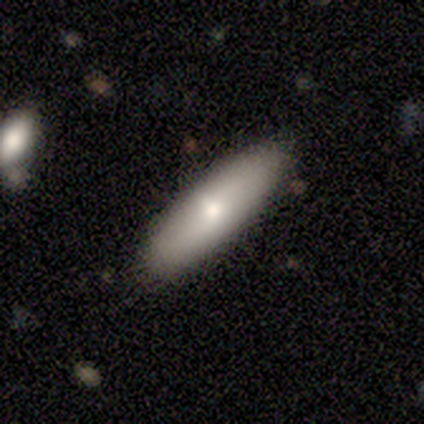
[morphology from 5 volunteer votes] Smooth or featured: smooth — 80% (featured or disk — 20%)
How rounded: cigar-shaped — 75% (in between — 25%)
Merging: none — 100%